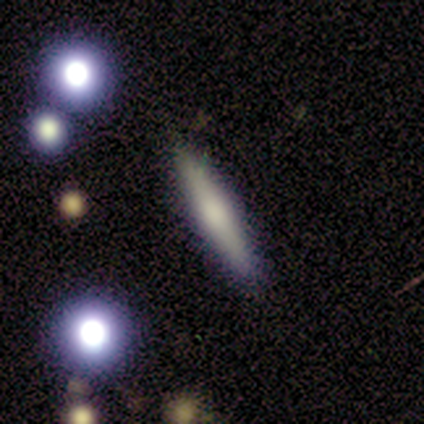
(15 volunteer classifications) A smooth galaxy with no disk features (60%) that is cigar-shaped (100%). Merging: none (85%).